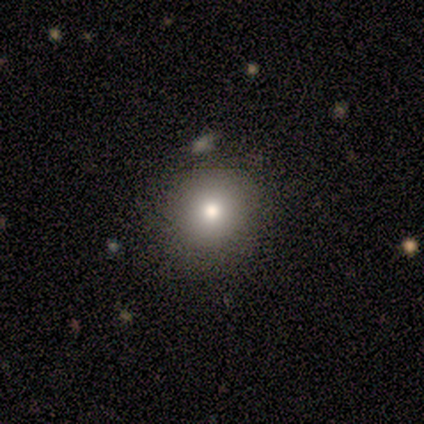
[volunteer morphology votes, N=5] Overall: smooth (80%). How rounded: round (75%). Merging: none (100%).